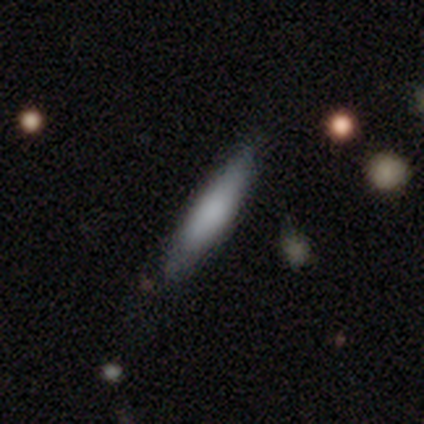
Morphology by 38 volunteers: Smooth or featured?
  - smooth: 71% *
  - featured or disk: 24%
  - star or artifact: 5%
How rounded?
  - cigar-shaped: 78% *
  - in between: 22%
  - round: 0%
Merging?
  - none: 78% *
  - minor disturbance: 19%
  - major disturbance: 3%
  - merger: 0%